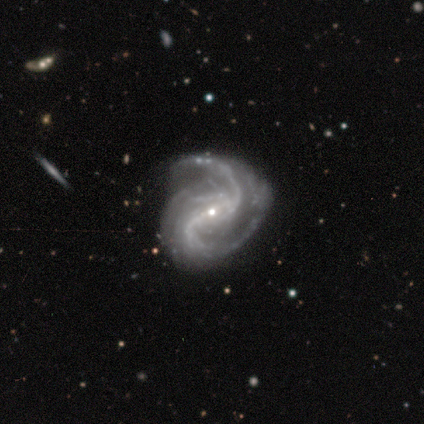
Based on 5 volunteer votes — This appears to be a featured or disk galaxy (100%) with a strong bar (60%), 2 (100%) loose (80%) spiral arms (100%) and a small central bulge (100%). Merging: none (60%).